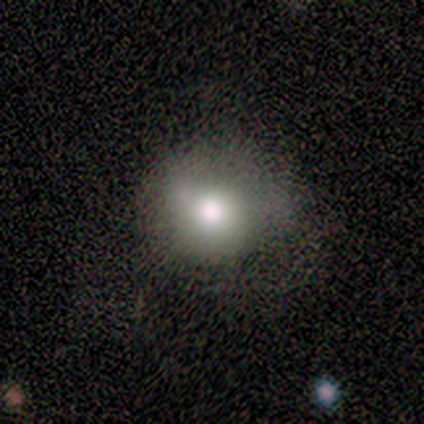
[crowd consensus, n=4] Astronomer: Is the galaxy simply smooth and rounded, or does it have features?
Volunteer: smooth — 75%.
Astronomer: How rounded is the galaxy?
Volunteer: round — 67%.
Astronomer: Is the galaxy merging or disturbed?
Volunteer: none — 67%.